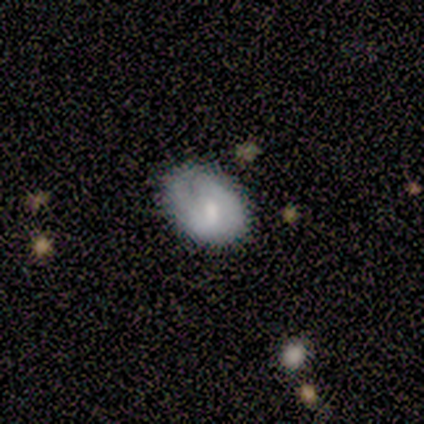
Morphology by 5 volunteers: A smooth galaxy with no disk features (80%) that is in between round and cigar-shaped (75%). Merging: none (75%).